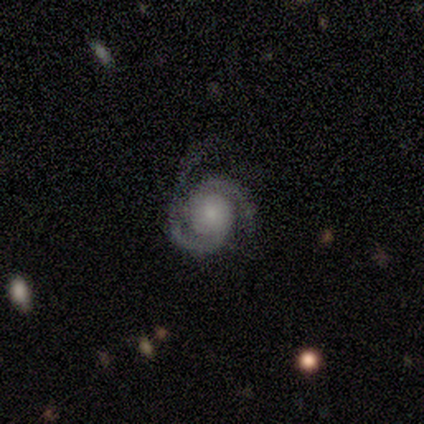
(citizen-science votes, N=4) Q: Smooth or featured?
A: featured or disk (100%)
Q: Edge-on disk?
A: no (75%); runner-up: yes (25%)
Q: Bar?
A: no (100%)
Q: Spiral arms?
A: yes (100%)
Q: Spiral winding?
A: tight (67%); runner-up: medium (33%)
Q: Spiral arm count?
A: 2 (100%)
Q: Bulge size?
A: moderate (67%); runner-up: small (33%)
Q: Merging?
A: none (75%); runner-up: minor disturbance (25%)